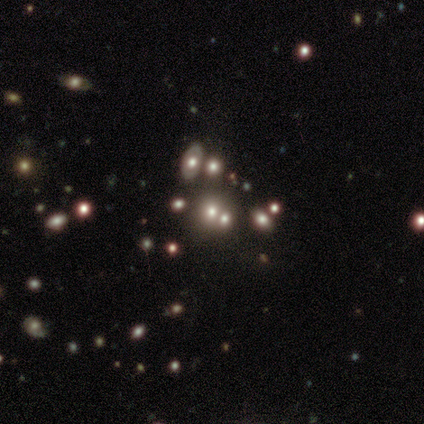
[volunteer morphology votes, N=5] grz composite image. It shows a featured or disk galaxy (40%, tied with star or artifact) with no bar (100%), no spiral arms (100%) and a moderate central bulge (100%). Merging: merger (67%).